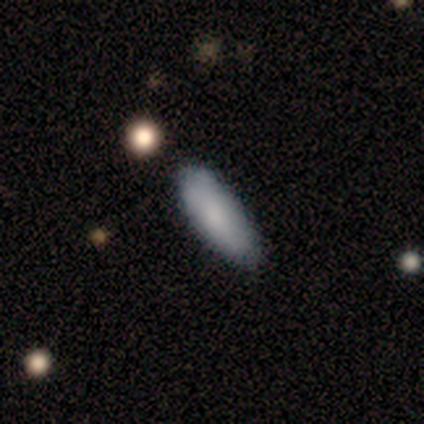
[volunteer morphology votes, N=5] Smooth or featured? smooth (80%)
How rounded? in between (75%)
Merging? none (75%)